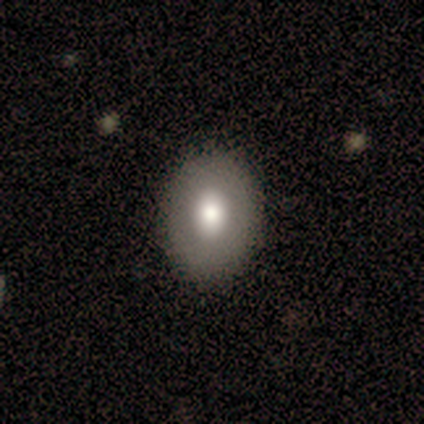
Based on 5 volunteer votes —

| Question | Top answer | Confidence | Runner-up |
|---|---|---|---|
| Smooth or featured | smooth | 60% | star or artifact (40%) |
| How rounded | in between | 67% | round (33%) |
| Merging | none | 100% | — |